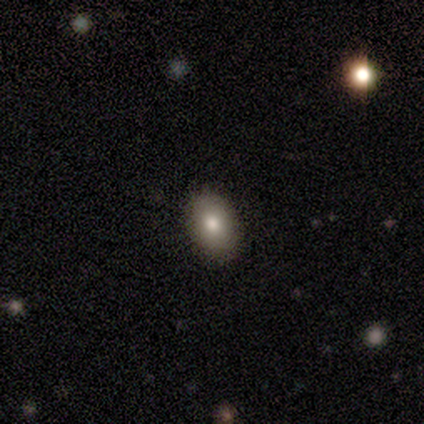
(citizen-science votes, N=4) Smooth or featured?
  - smooth: 100% *
  - featured or disk: 0%
  - star or artifact: 0%
How rounded?
  - in between: 75% *
  - round: 25%
  - cigar-shaped: 0%
Merging?
  - none: 75% *
  - minor disturbance: 25%
  - major disturbance: 0%
  - merger: 0%